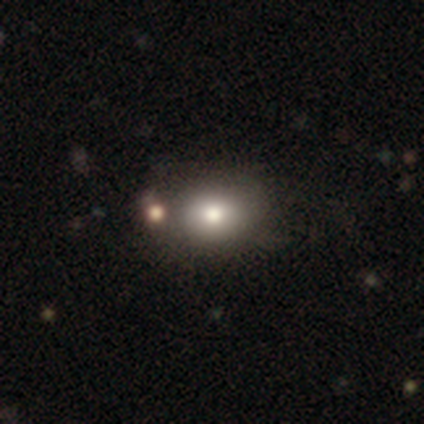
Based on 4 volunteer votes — A star or artifact, not a galaxy (50%).